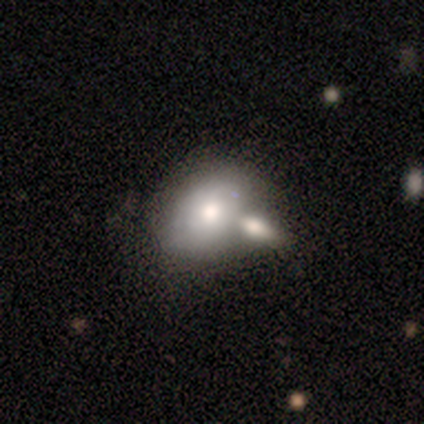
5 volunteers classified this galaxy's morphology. smooth-or-featured: featured or disk: 60% | smooth: 40% | star or artifact: 0%
  disk-edge-on: no: 67% | yes: 33%
    bar: no: 100% | strong: 0% | weak: 0%
    has-spiral-arms: no: 100% | yes: 0%
    bulge-size: moderate: 100% | dominant: 0% | large: 0% | small: 0% | none: 0%
  merging: none: 40% (tied) | merger: 40% (tied) | minor disturbance: 20% | major disturbance: 0%